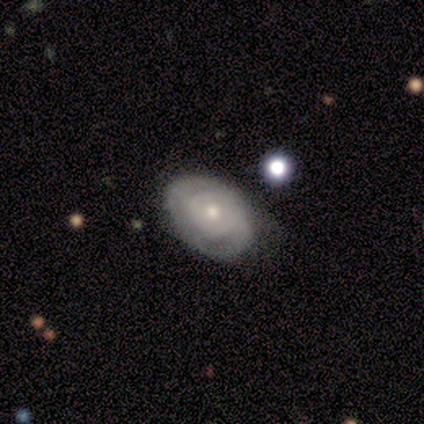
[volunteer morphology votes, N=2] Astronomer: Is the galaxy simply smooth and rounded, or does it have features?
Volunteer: featured or disk — 100%.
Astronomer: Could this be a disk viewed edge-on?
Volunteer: yes — 50%, tied with no at 50%.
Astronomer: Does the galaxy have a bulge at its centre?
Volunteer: boxy — 100%.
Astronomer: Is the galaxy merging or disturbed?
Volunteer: none — 50%, tied with merger at 50%.